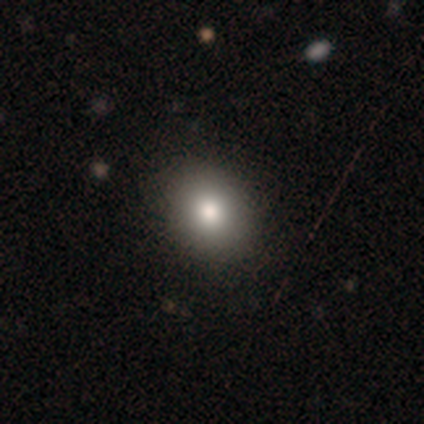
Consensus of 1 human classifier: Smooth or featured? 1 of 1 (100%) said smooth. How rounded? 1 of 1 (100%) said round. Merging? 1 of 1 (100%) said none.